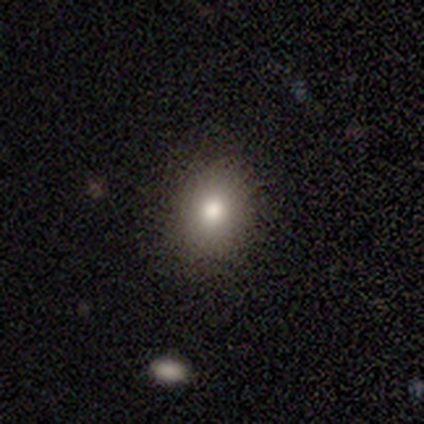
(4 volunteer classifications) This appears to be a smooth galaxy with no disk features (75%) that is round (67%). Merging: none (100%).